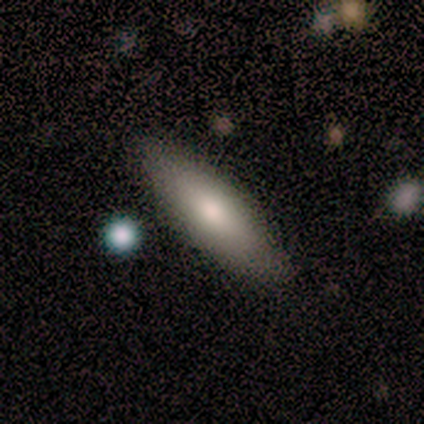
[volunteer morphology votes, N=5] A smooth galaxy with no disk features (100%) that is in between round and cigar-shaped (80%).

Vote fractions:
- Smooth or featured? smooth: 100% / featured or disk: 0% / star or artifact: 0%
- How rounded? in between: 80% / cigar-shaped: 20% / round: 0%
- Merging? none: 100% / minor disturbance: 0% / major disturbance: 0% / merger: 0%